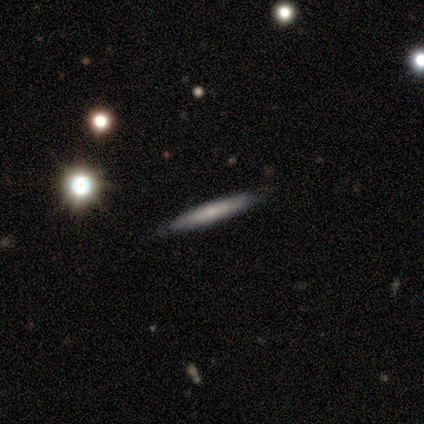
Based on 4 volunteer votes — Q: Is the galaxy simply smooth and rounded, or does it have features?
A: smooth — 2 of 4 (50%, tied with featured or disk).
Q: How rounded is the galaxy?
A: cigar-shaped — 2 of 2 (100%).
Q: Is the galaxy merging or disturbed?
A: none — 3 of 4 (75%).